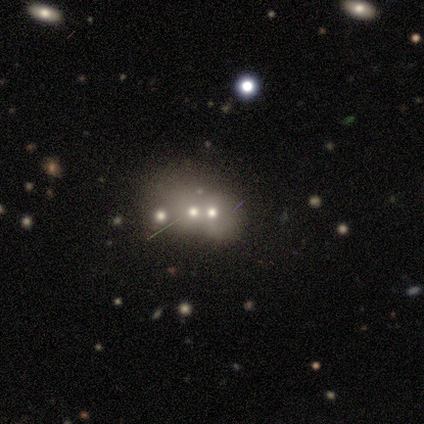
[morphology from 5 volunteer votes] This appears to be a star or artifact, not a galaxy (60%).